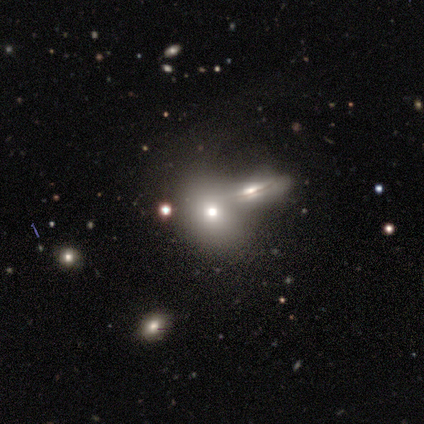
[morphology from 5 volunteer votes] Smooth or featured?
  - smooth: 80% *
  - featured or disk: 20%
  - star or artifact: 0%
How rounded?
  - round: 75% *
  - in between: 25%
  - cigar-shaped: 0%
Merging?
  - none: 60% *
  - merger: 40%
  - minor disturbance: 0%
  - major disturbance: 0%